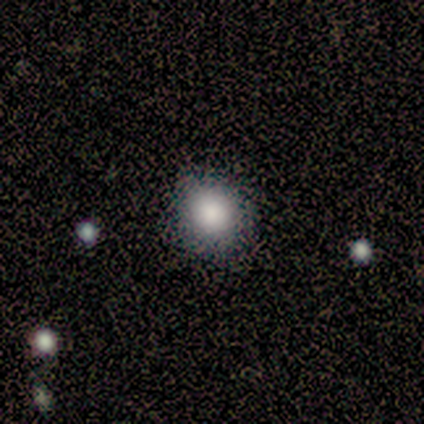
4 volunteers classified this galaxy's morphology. Smooth or featured: smooth — 100%
How rounded: round — 100%
Merging: none — 100%